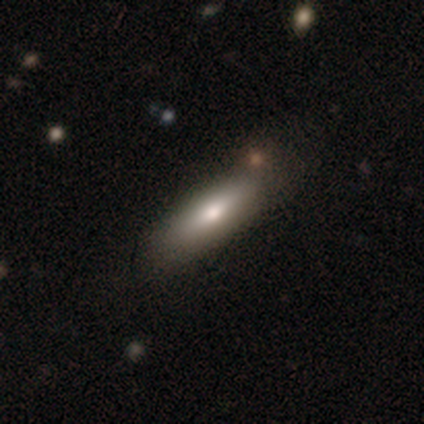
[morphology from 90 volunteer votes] Smooth or featured?
  - smooth: 69% *
  - featured or disk: 22%
  - star or artifact: 9%
How rounded?
  - cigar-shaped: 61% *
  - in between: 39%
  - round: 0%
Merging?
  - none: 79% *
  - minor disturbance: 12%
  - major disturbance: 6%
  - merger: 2%